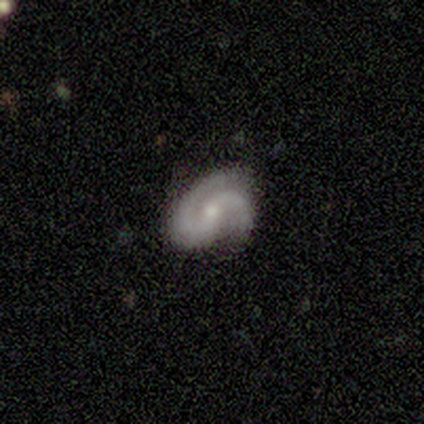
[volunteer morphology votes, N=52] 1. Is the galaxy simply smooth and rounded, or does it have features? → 94% featured or disk, 4% star or artifact, 2% smooth.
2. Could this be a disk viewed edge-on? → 100% no, 0% yes.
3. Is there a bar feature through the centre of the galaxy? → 57% no, 35% weak, 8% strong.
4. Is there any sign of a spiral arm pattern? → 98% yes, 2% no.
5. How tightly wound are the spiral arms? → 44% medium, 31% tight, 25% loose.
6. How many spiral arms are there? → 94% 2, 4% 1, 2% can't tell, 0% 3, 0% 4, 0% more than 4.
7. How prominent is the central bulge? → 51% moderate, 47% small, 2% none, 0% dominant, 0% large.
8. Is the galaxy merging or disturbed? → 60% none, 28% minor disturbance, 12% major disturbance, 0% merger.